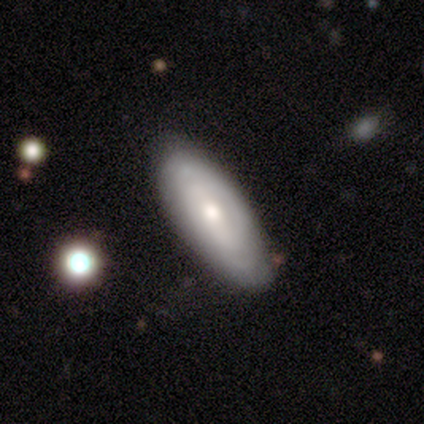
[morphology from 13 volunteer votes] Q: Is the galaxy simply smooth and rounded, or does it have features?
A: smooth — 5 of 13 (38%, tied with featured or disk).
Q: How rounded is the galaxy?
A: in between — 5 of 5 (100%).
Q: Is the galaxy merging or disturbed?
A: none — 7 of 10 (70%).